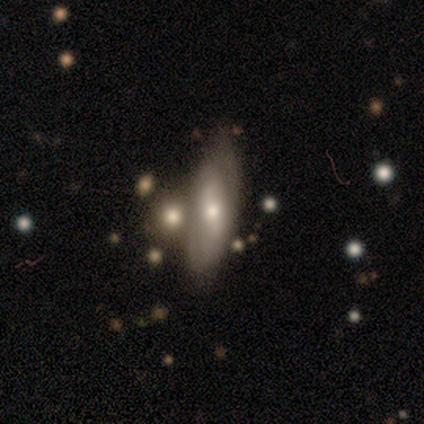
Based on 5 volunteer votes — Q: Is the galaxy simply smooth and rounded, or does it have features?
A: featured or disk — 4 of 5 (80%).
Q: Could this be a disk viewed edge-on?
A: no — 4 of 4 (100%).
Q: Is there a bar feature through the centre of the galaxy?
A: weak — 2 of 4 (50%).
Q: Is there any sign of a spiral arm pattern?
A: yes — 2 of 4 (50%, tied with no).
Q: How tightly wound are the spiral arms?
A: tight — 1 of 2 (50%, tied with medium).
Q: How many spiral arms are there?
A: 2 — 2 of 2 (100%).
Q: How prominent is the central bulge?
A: moderate — 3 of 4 (75%).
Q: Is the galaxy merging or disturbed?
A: none — 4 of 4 (100%).